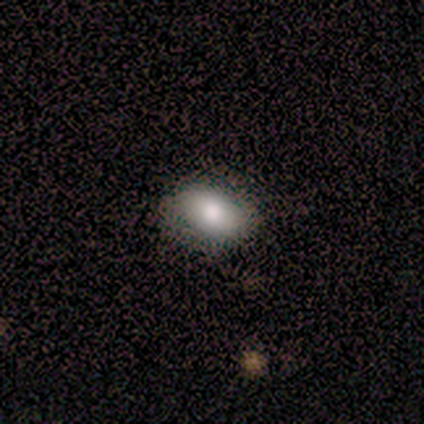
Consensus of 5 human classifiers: Morphology: type=smooth (80%); roundness=round (50%, tied with in between); merging=none (60%).